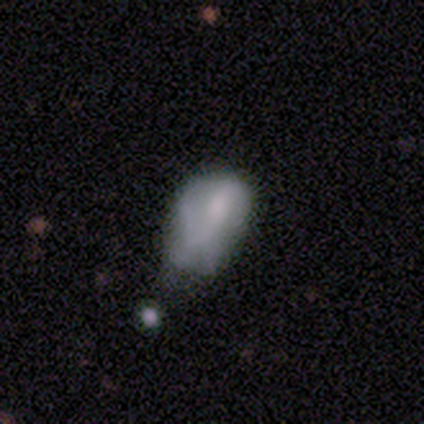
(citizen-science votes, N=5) Smooth or featured?
  - smooth: 40% * (tied)
  - featured or disk: 40% * (tied)
  - star or artifact: 20%
How rounded?
  - in between: 100% *
  - round: 0%
  - cigar-shaped: 0%
Merging?
  - none: 50% *
  - major disturbance: 25%
  - merger: 25%
  - minor disturbance: 0%